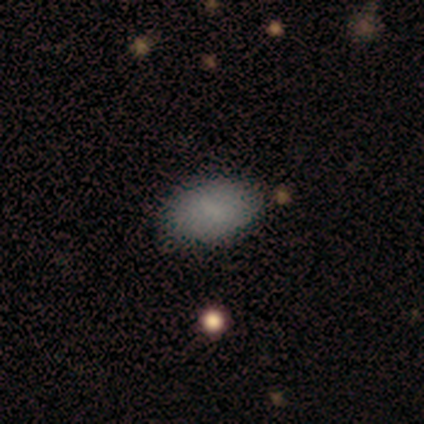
A smooth galaxy with no disk features (100%) that is in between round and cigar-shaped (80%).

Vote fractions:
- Smooth or featured? smooth: 100% / featured or disk: 0% / star or artifact: 0%
- How rounded? in between: 80% / round: 20% / cigar-shaped: 0%
- Merging? none: 100% / minor disturbance: 0% / major disturbance: 0% / merger: 0%